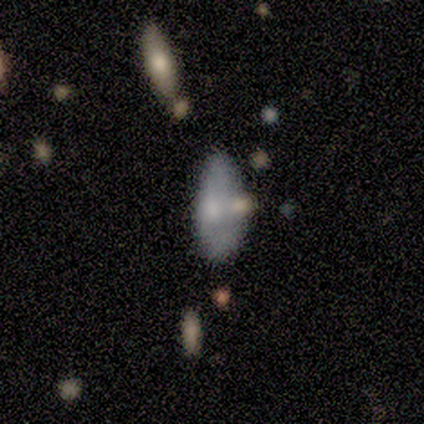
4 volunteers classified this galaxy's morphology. Q: Smooth or featured?
A: featured or disk (100%)
Q: Edge-on disk?
A: no (75%); runner-up: yes (25%)
Q: Bar?
A: no (67%); runner-up: weak (33%)
Q: Spiral arms?
A: no (67%); runner-up: yes (33%)
Q: Bulge size?
A: moderate (33%); tied with: small (33%); none (33%)
Q: Merging?
A: none (75%); runner-up: minor disturbance (25%)